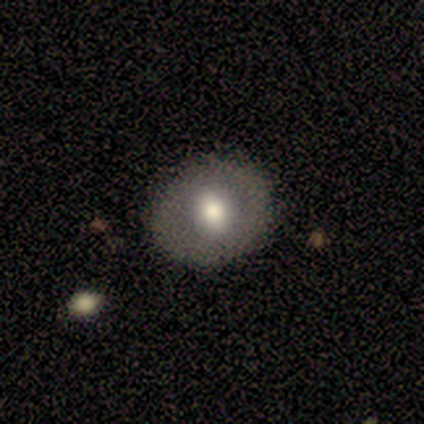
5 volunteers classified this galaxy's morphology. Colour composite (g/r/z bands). It shows a smooth galaxy with no disk features (80%) that is round (100%). Merging: none (75%).